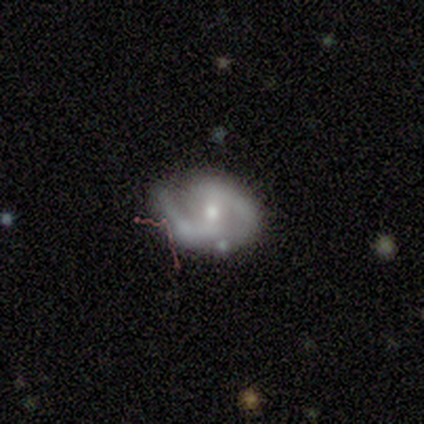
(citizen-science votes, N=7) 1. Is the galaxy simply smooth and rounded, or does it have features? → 86% featured or disk, 14% smooth, 0% star or artifact.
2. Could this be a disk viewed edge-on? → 100% no, 0% yes.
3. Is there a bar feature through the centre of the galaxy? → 50% weak, 33% no, 17% strong.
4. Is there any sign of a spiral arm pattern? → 83% yes, 17% no.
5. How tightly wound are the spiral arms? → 60% loose, 40% medium, 0% tight.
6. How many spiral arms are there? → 100% 2, 0% 1, 0% 3, 0% 4, 0% more than 4, 0% can't tell.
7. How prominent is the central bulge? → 67% moderate, 33% small, 0% dominant, 0% large, 0% none.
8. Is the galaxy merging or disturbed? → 71% none, 29% minor disturbance, 0% major disturbance, 0% merger.